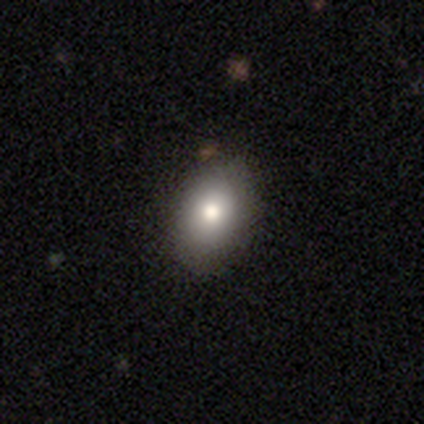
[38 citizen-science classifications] Overall: smooth (84%). How rounded: in between (78%). Merging: none (92%).